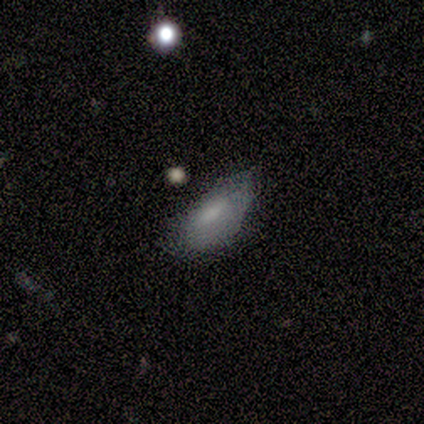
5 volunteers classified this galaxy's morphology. Smooth or featured?
  - smooth: 100% *
  - featured or disk: 0%
  - star or artifact: 0%
How rounded?
  - in between: 100% *
  - round: 0%
  - cigar-shaped: 0%
Merging?
  - minor disturbance: 80% *
  - major disturbance: 20%
  - none: 0%
  - merger: 0%